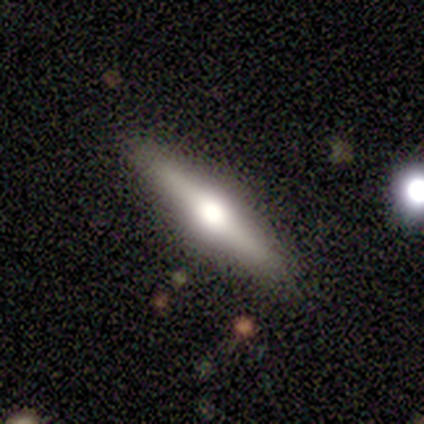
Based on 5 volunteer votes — A featured or disk galaxy (60%) viewed edge-on (100%) with a rounded central bulge (100%). Merging: none (100%).